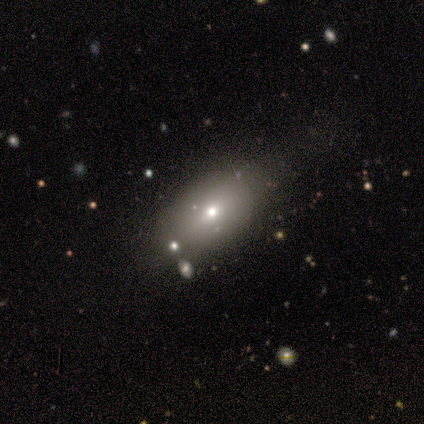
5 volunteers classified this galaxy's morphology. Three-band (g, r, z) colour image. It shows a smooth galaxy with no disk features (60%) that is in between round and cigar-shaped (100%). Merging: minor disturbance (67%).